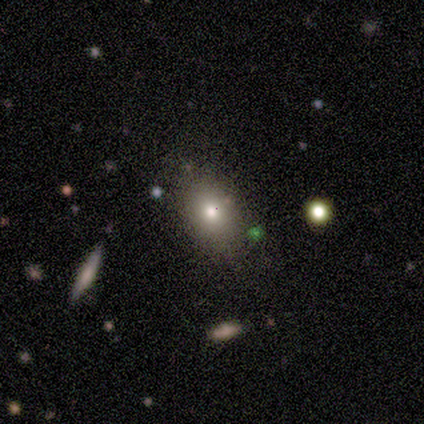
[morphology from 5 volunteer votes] Smooth or featured? 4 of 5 (80%) said smooth. How rounded? 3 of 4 (75%) said in between. Merging? 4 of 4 (100%) said none.